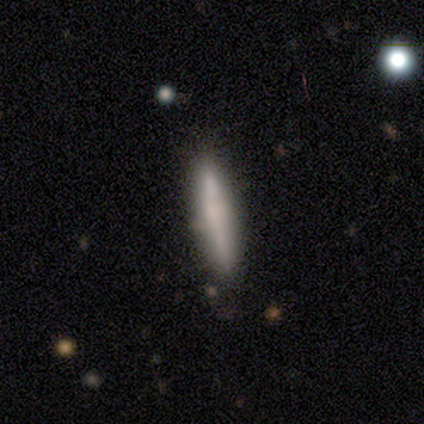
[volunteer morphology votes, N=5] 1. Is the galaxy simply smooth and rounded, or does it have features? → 100% smooth, 0% featured or disk, 0% star or artifact.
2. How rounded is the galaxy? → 100% cigar-shaped, 0% round, 0% in between.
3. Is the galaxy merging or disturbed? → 100% none, 0% minor disturbance, 0% major disturbance, 0% merger.